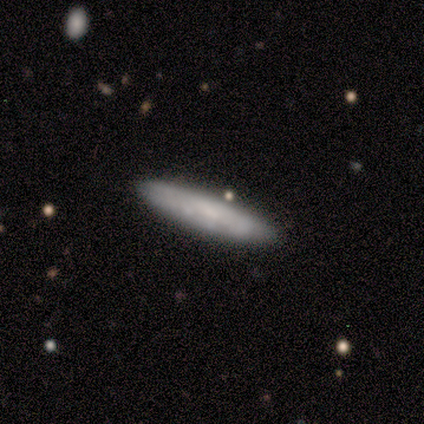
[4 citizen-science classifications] Q: Smooth or featured?
A: smooth (50%); tied with: featured or disk (50%)
Q: How rounded?
A: cigar-shaped (100%)
Q: Merging?
A: none (100%)